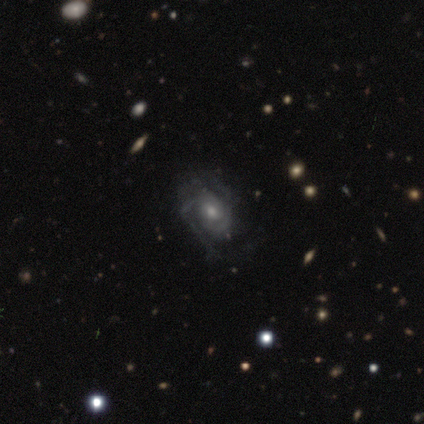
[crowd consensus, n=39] Smooth or featured? featured or disk (87%)
Edge-on disk? no (94%)
Bar? no (88%)
Spiral arms? yes (91%)
Spiral winding? tight (52%)
Spiral arm count? 2 (34%, tied with can't tell)
Bulge size? moderate (59%)
Merging? none (53%)